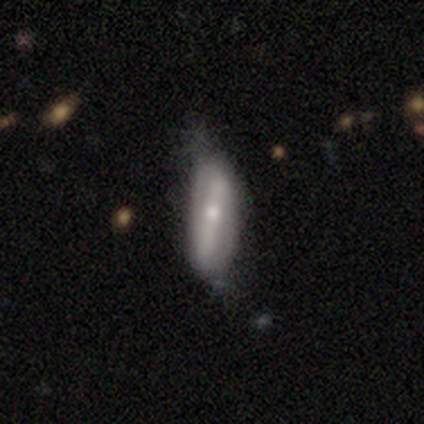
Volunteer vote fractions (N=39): Overall: featured or disk (72%). Edge-on disk: no (71%). Bar: strong (75%). Spiral arms: no (55%; yes 45%). Bulge size: moderate (65%). Merging: minor disturbance (46%; none 21%).